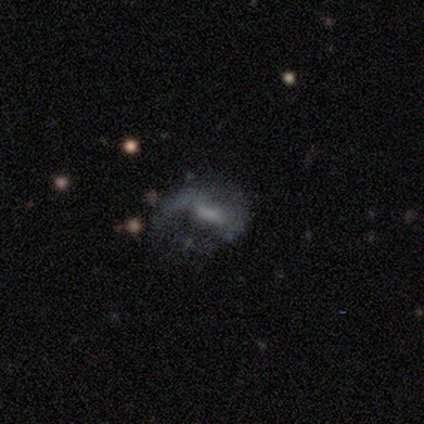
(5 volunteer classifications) smooth_or_featured: featured or disk (p=1.00)
disk_edge_on: no (p=1.00)
bar: weak (p=1.00)
has_spiral_arms: no (p=0.60) [alt: yes p=0.40]
bulge_size: small (p=0.40) [alt: large p=0.20]
merging: major disturbance (p=0.60) [alt: none p=0.20]